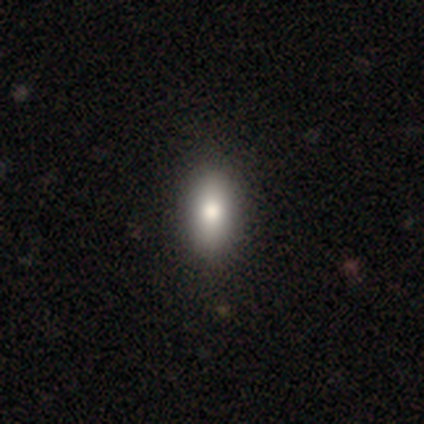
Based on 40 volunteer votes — Smooth or featured?
  - smooth: 78% *
  - featured or disk: 18%
  - star or artifact: 5%
How rounded?
  - in between: 87% *
  - round: 10%
  - cigar-shaped: 3%
Merging?
  - none: 66% *
  - minor disturbance: 5%
  - major disturbance: 3%
  - merger: 0%